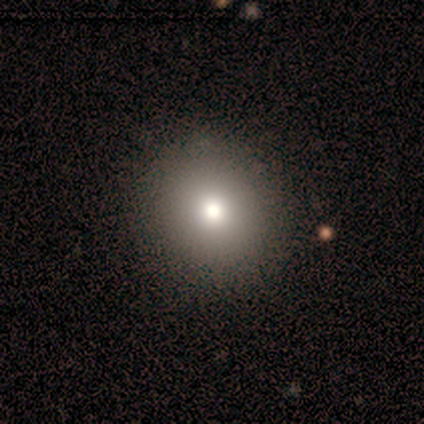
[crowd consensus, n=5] A smooth galaxy with no disk features (80%) that is round (75%).

Vote fractions:
- Smooth or featured? smooth: 80% / star or artifact: 20% / featured or disk: 0%
- How rounded? round: 75% / in between: 25% / cigar-shaped: 0%
- Merging? none: 100% / minor disturbance: 0% / major disturbance: 0% / merger: 0%